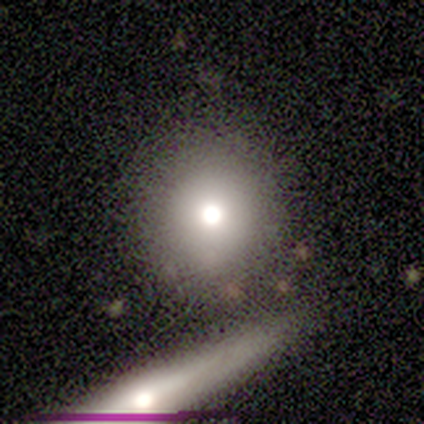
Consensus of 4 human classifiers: smooth_or_featured: smooth (p=0.50) [tied with: featured or disk p=0.50]
how_rounded: round (p=1.00)
merging: none (p=0.75) [alt: major disturbance p=0.25]